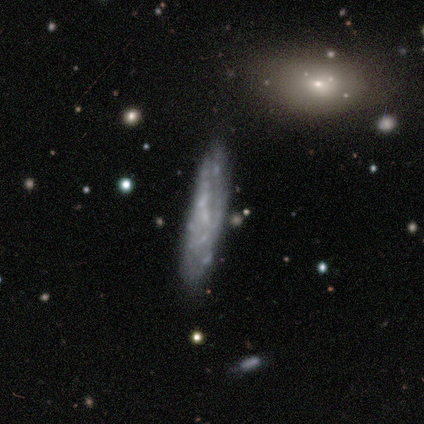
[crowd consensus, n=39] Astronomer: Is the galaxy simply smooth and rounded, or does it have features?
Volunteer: featured or disk — 77%.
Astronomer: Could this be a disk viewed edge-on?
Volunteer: no — 77%.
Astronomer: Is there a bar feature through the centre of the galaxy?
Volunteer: no — 96%.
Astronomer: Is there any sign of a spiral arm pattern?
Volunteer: no — 78%.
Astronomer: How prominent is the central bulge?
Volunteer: none — 74%.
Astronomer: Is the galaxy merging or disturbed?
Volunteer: none — 61%.